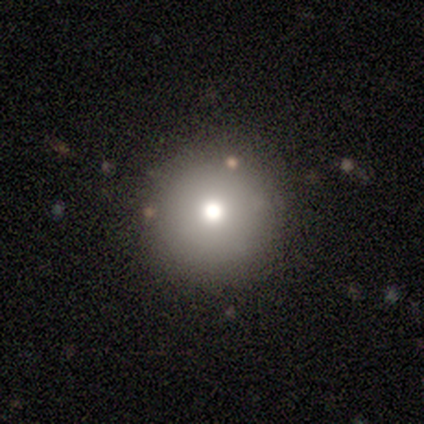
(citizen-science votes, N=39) Volunteers were most divided on "smooth or featured": smooth: 59%, star or artifact: 23%, featured or disk: 18%. More confident: merging — none (93%); how rounded — round (91%).